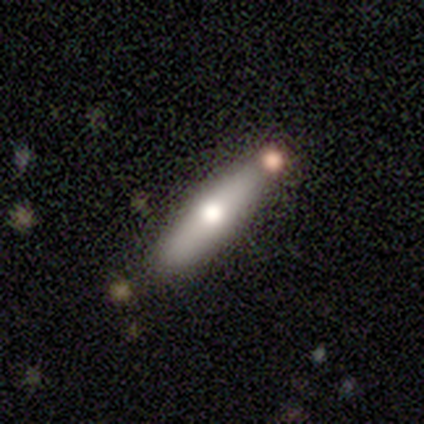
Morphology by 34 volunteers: Smooth or featured: smooth — 56% (featured or disk — 41%)
How rounded: cigar-shaped — 79% (in between — 21%)
Merging: none — 76% (minor disturbance — 18%)